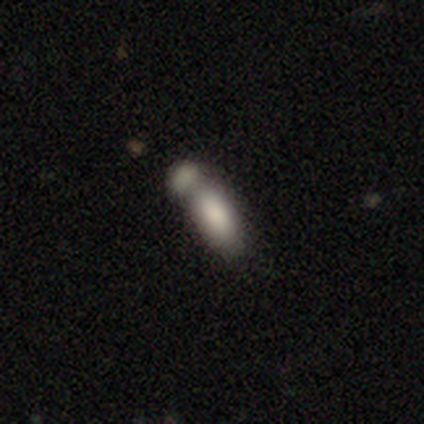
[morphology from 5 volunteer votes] Q: Smooth or featured?
A: smooth (80%); runner-up: featured or disk (20%)
Q: How rounded?
A: in between (75%); runner-up: cigar-shaped (25%)
Q: Merging?
A: merger (60%); runner-up: none (20%)